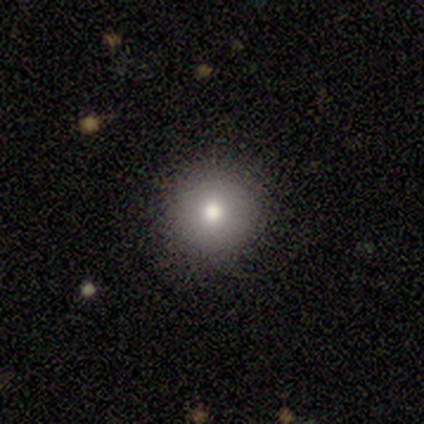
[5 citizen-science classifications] Smooth or featured: smooth — 60% (featured or disk — 40%)
How rounded: round — 100%
Merging: none — 100%